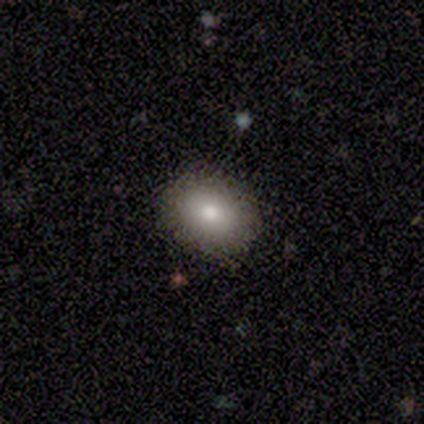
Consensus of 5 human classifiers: This appears to be a smooth galaxy with no disk features (80%) that is round (75%). Merging: none (100%).